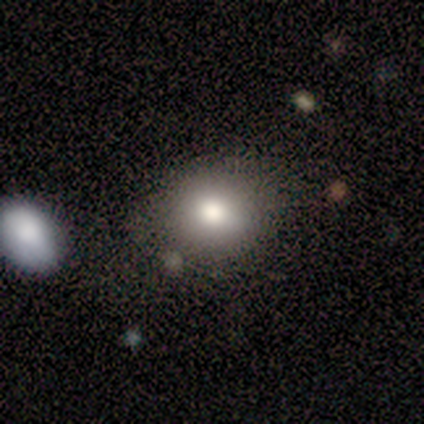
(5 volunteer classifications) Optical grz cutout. It shows a smooth galaxy with no disk features (100%) that is round (80%). Merging: none (80%).